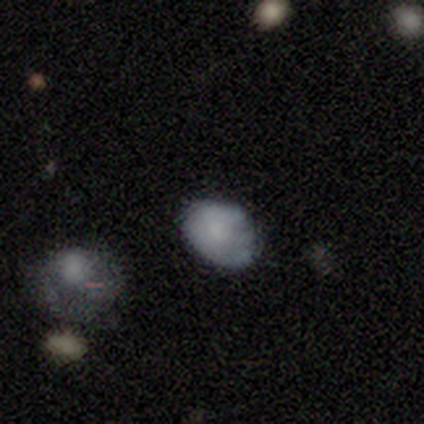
Volunteers were most divided on "merging": minor disturbance: 60%, none: 40%, major disturbance: 0%, merger: 0%. More confident: how rounded — in between (100%); smooth or featured — smooth (80%).